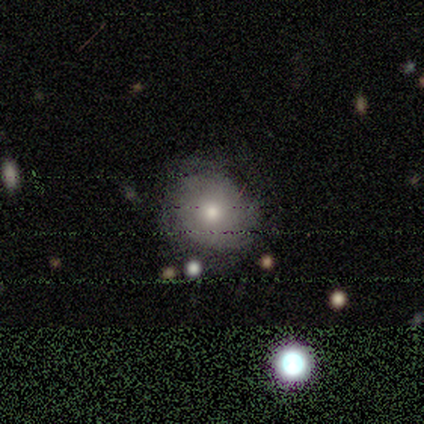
smooth_or_featured: smooth (p=0.40) [tied with: featured or disk p=0.40]
how_rounded: round (p=1.00)
merging: none (p=0.75) [alt: major disturbance p=0.25]